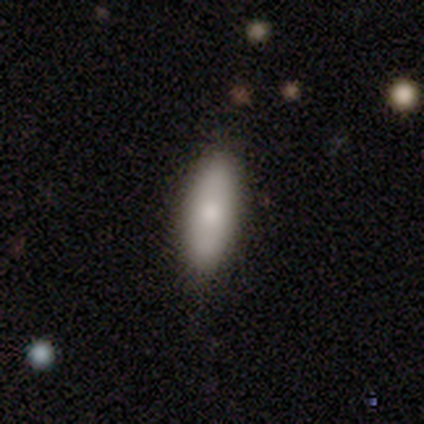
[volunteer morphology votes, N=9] Overall: smooth (89%). How rounded: in between (50%, tied with cigar-shaped). Merging: none (78%).